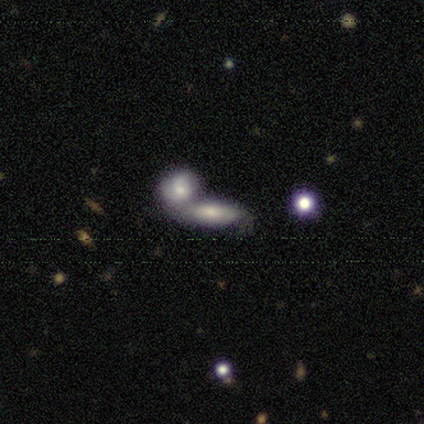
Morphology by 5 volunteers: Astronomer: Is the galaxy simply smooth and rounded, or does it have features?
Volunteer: smooth — 80%.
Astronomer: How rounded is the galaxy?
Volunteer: in between — 75%.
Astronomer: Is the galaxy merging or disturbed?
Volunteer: none — 50%, tied with merger at 50%.